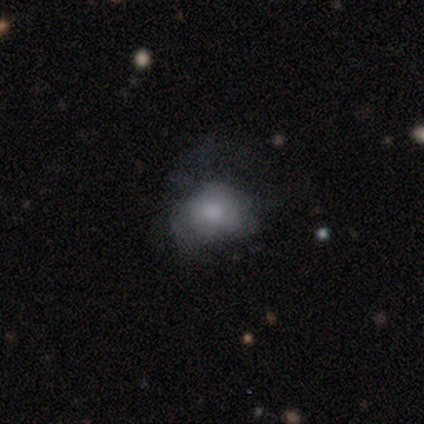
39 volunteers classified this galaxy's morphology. smooth_or_featured: smooth (p=0.59) [alt: featured or disk p=0.28]
how_rounded: round (p=0.57) [alt: in between p=0.43]
merging: minor disturbance (p=0.38) [alt: major disturbance p=0.32]